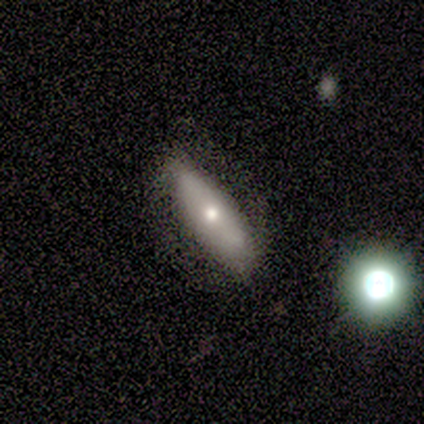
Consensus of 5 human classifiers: This is clearly a featured or disk galaxy (80%). It is likely not viewed edge-on (75%). Bar: likely strong (67%). Spiral arm pattern: clearly yes (100%). Spiral arm count: clearly 2 (100%). Spiral winding: marginally tight (33%, tied with medium and loose). Central bulge: likely moderate (67%). Merging: clearly none (100%).